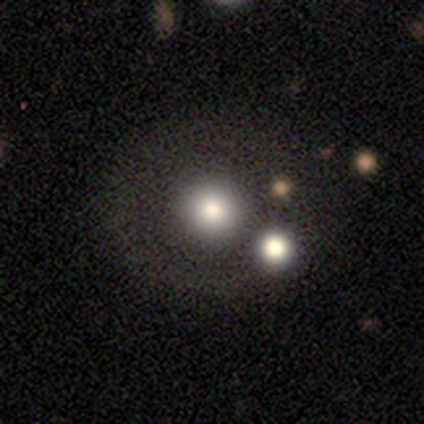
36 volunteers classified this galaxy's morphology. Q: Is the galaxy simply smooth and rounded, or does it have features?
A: smooth — 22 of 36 (61%).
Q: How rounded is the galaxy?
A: round — 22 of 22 (100%).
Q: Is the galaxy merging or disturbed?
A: none — 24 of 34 (71%).